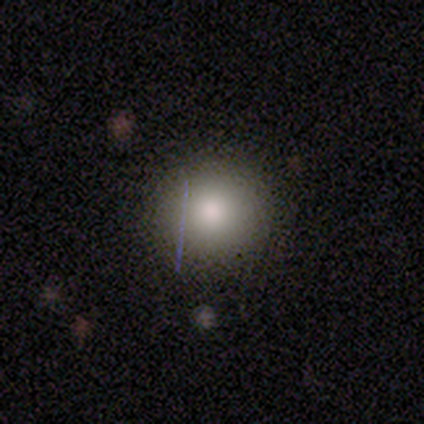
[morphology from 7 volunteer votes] smooth 100%, featured or disk 0%, star or artifact 0%. Down the decision tree: how rounded — round (86%); merging — none (71%).